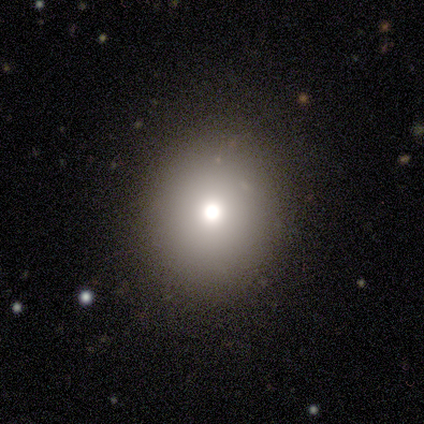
Overall: smooth (64%). How rounded: round (100%). Merging: none (100%).